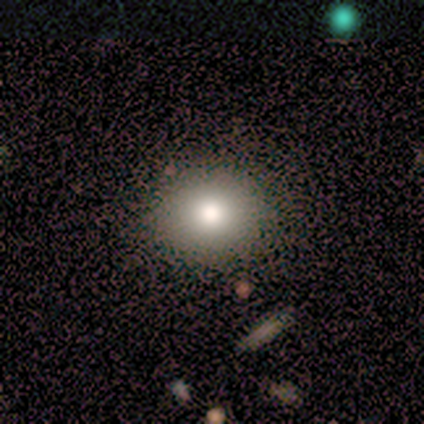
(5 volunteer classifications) smooth 60%, featured or disk 20%, star or artifact 20%. Down the decision tree: how rounded — in between (67%); merging — none (100%).